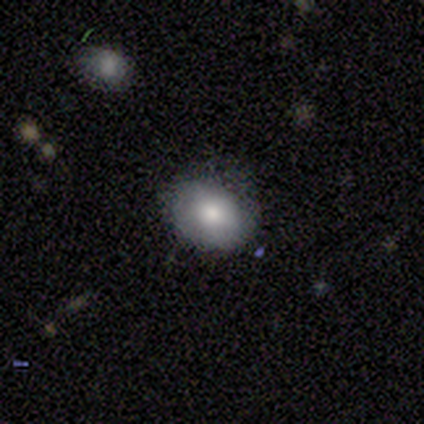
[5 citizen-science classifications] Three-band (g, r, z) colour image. It shows a smooth galaxy with no disk features (60%) that is in between round and cigar-shaped (100%). Merging: none (100%).